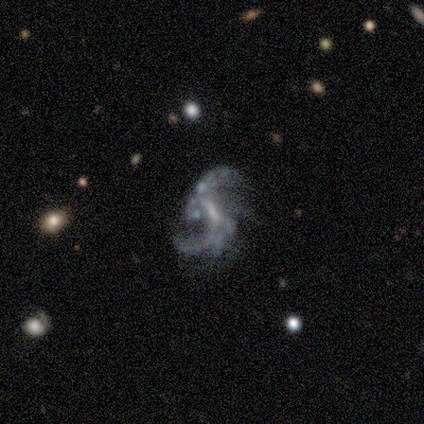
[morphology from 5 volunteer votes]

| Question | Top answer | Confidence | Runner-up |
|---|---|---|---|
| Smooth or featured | featured or disk | 100% | — |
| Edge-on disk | no | 100% | — |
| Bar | weak | 60% | strong (40%) |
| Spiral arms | yes | 100% | — |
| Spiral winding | medium | 40% | tied: loose (40%) |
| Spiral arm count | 2 | 60% | 1 (20%) |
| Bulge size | none | 80% | moderate (20%) |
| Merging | none | 40% | tied: minor disturbance (40%) |